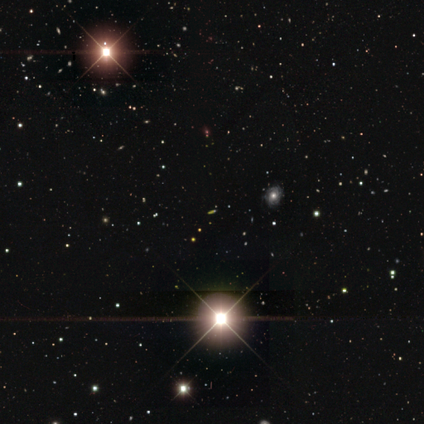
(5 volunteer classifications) Overall: star or artifact (100%).